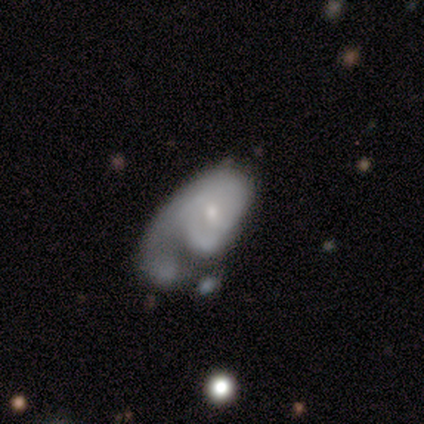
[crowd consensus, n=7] This appears to be a featured or disk galaxy (57%) with no bar (75%), no spiral arms (75%) and a small central bulge (100%). Merging: merger (43%).